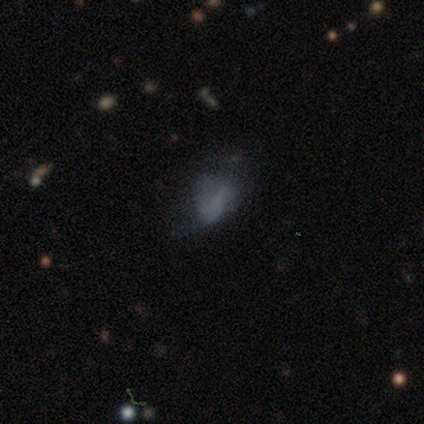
smooth 40% (tied), featured or disk 40% (tied), star or artifact 20%. Down the decision tree: how rounded — in between (100%); merging — minor disturbance (50%).